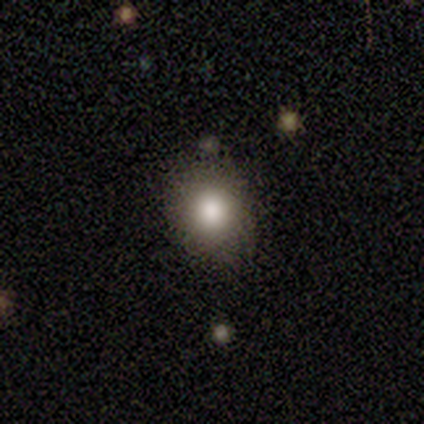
Q: Smooth or featured?
A: smooth (75%); runner-up: featured or disk (17%)
Q: How rounded?
A: round (56%); runner-up: in between (44%)
Q: Merging?
A: none (73%); runner-up: minor disturbance (27%)